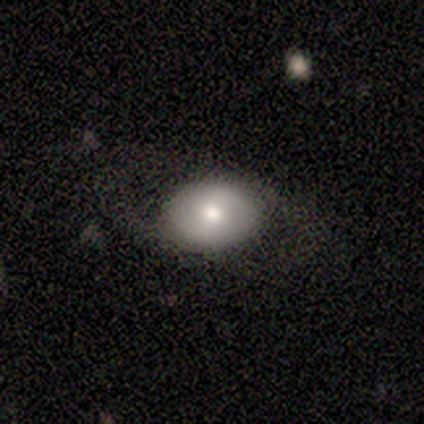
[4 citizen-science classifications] featured or disk 75%, smooth 25%, star or artifact 0%. Down the decision tree: edge-on disk — no (100%); bar — weak (67%); spiral arms — yes (67%); spiral arm count — 2 (50%, tied with can't tell); spiral winding — loose (100%); bulge size — moderate (67%); merging — none (50%).